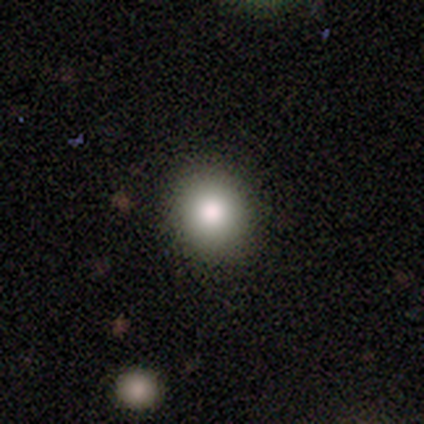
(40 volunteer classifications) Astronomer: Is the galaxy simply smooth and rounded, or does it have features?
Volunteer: smooth — 88%.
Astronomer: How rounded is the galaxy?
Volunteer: round — 63%.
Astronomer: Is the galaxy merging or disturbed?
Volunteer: none — 59%.